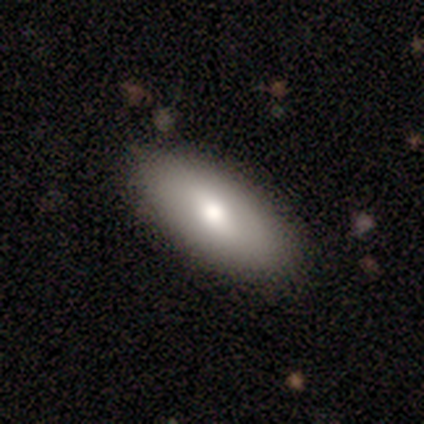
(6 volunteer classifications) Morphology: type=smooth (50%, tied with featured or disk); roundness=in between (67%); merging=none (100%).